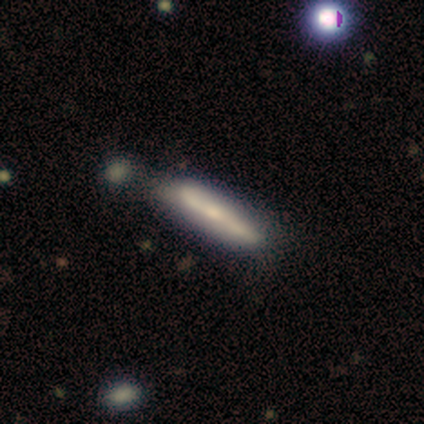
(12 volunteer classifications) Morphology: type=smooth (50%, tied with featured or disk); roundness=cigar-shaped (100%); merging=none (58%).